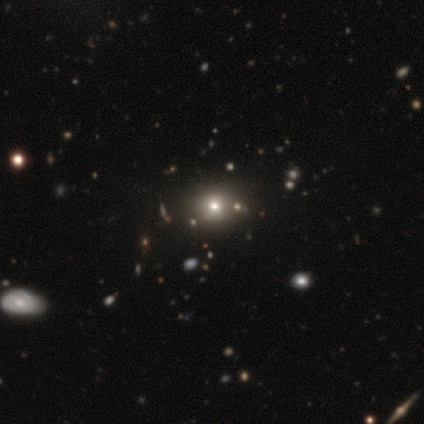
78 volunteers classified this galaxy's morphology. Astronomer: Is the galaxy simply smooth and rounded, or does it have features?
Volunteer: smooth — 68%.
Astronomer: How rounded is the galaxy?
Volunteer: round — 83%.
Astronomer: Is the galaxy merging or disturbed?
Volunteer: none — 41%.